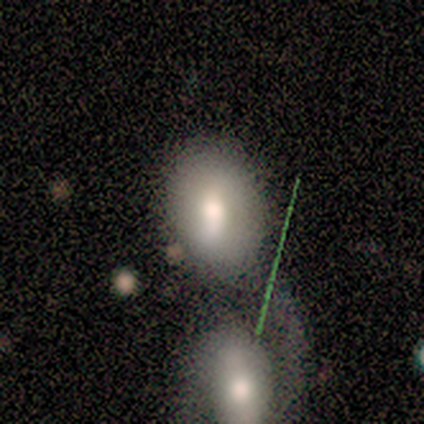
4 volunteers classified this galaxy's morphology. smooth 50% (tied), featured or disk 50% (tied), star or artifact 0%. Down the decision tree: how rounded — round (50%, tied with in between); merging — merger (50%).